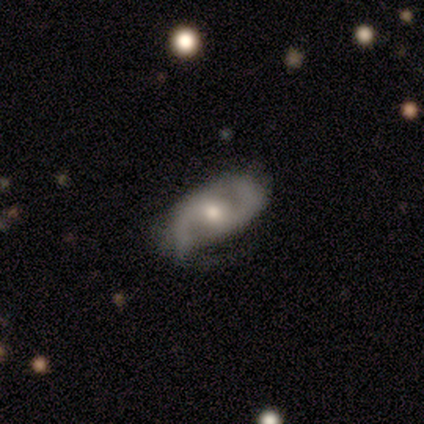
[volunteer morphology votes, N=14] Q: Smooth or featured?
A: featured or disk (100%)
Q: Edge-on disk?
A: no (93%); runner-up: yes (7%)
Q: Bar?
A: no (62%); runner-up: weak (38%)
Q: Spiral arms?
A: yes (92%); runner-up: no (8%)
Q: Spiral winding?
A: medium (67%); runner-up: loose (33%)
Q: Spiral arm count?
A: 2 (100%)
Q: Bulge size?
A: moderate (69%); runner-up: small (23%)
Q: Merging?
A: none (71%); runner-up: minor disturbance (21%)